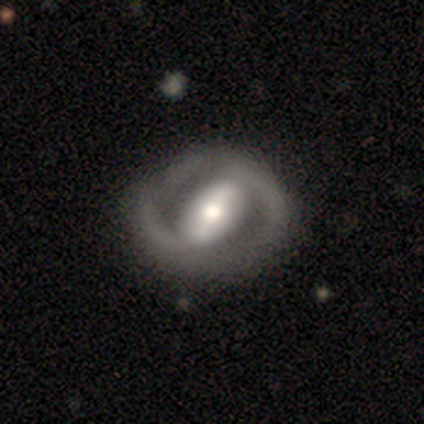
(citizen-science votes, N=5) A featured or disk galaxy (100%) with a weak bar (60%), no spiral arms (60%) and a moderate central bulge (60%). Merging: none (100%).